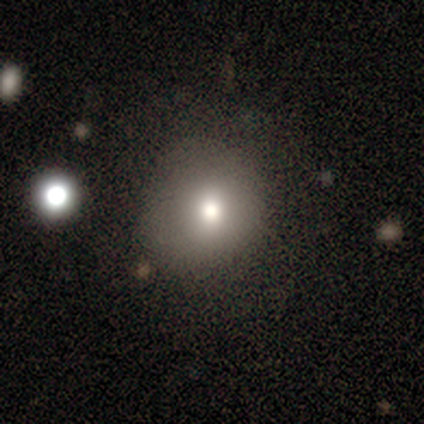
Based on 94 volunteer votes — This is likely a smooth galaxy (77%). How rounded: clearly round (86%). Merging: likely none (68%).